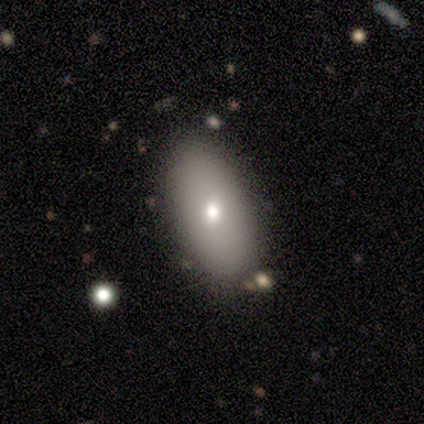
Smooth or featured: smooth — 60% (featured or disk — 30%)
How rounded: in between — 83% (cigar-shaped — 17%)
Merging: none — 78% (minor disturbance — 11%)